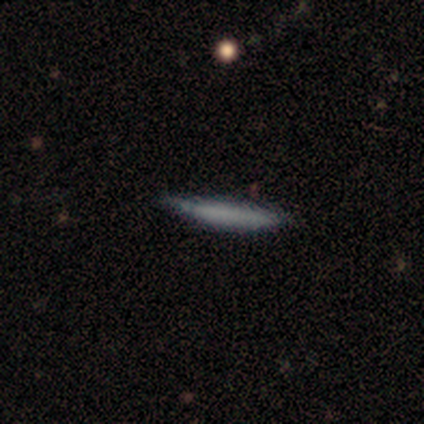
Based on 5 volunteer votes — Morphology: type=smooth (80%); roundness=cigar-shaped (100%); merging=none (80%).